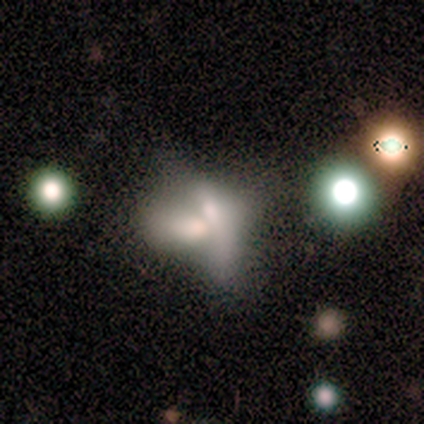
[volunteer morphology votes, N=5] Volunteers were most divided on "smooth or featured" (2-way tie): smooth: 40%, featured or disk: 40%, star or artifact: 20%; "how rounded" (2-way tie): round: 50%, in between: 50%, cigar-shaped: 0%. More confident: merging — merger (100%).